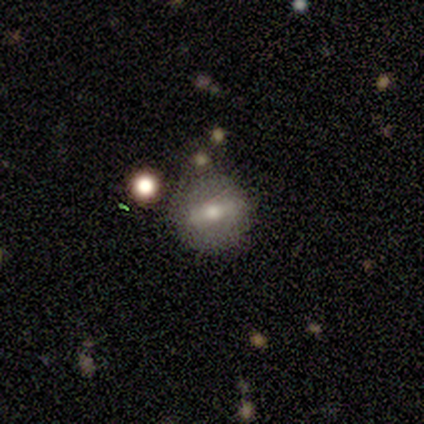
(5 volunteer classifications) A smooth galaxy with no disk features (60%) that is round (67%).

Vote fractions:
- Smooth or featured? smooth: 60% / featured or disk: 40% / star or artifact: 0%
- How rounded? round: 67% / in between: 33% / cigar-shaped: 0%
- Merging? none: 80% / major disturbance: 20% / minor disturbance: 0% / merger: 0%